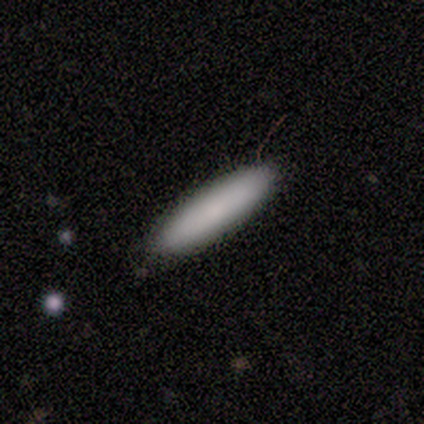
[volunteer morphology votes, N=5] Smooth or featured? 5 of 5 (100%) said smooth. How rounded? 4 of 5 (80%) said cigar-shaped. Merging? 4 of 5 (80%) said none.